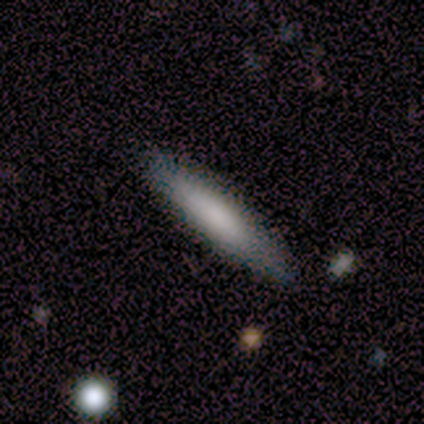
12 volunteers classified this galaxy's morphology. This is likely a smooth galaxy (67%). How rounded: clearly cigar-shaped (88%). Merging: clearly none (100%).